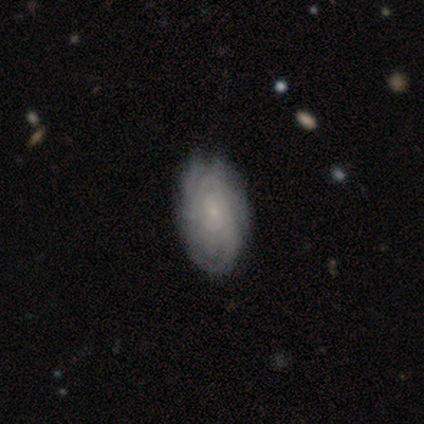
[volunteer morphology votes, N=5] Volunteers were most divided on "smooth or featured": featured or disk: 60%, smooth: 40%, star or artifact: 0%. More confident: edge-on disk — no (100%); bar — no (100%); spiral arms — yes (100%); bulge size — small (100%); merging — none (80%); spiral winding — tight (67%); spiral arm count — can't tell (67%).